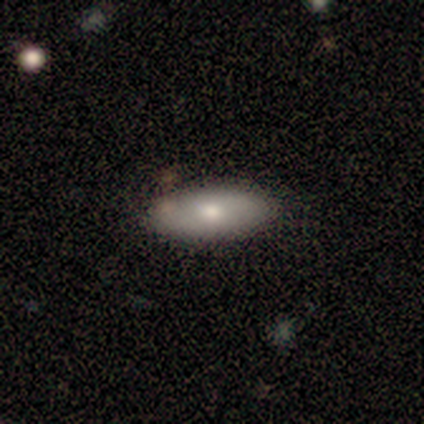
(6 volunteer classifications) Smooth or featured? 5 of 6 (83%) said smooth. How rounded? 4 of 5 (80%) said in between. Merging? 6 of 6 (100%) said none.